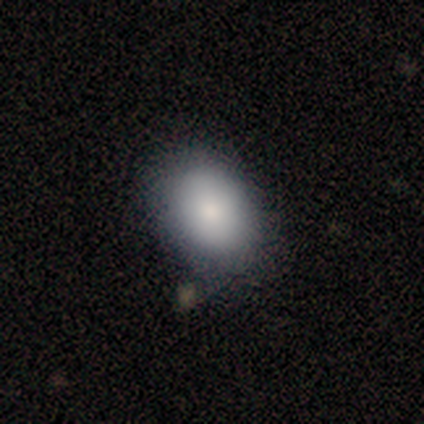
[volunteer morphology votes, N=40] Smooth or featured? 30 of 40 (75%) said smooth. How rounded? 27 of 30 (90%) said in between. Merging? 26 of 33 (79%) said none.